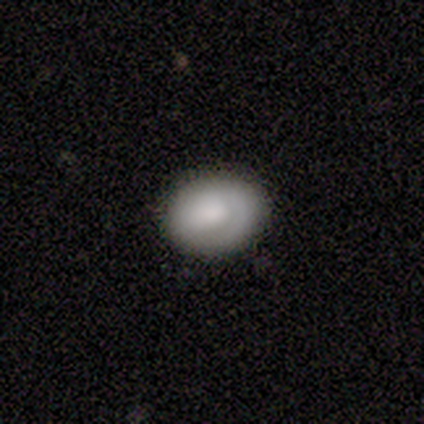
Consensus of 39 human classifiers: Overall: smooth (59%; featured or disk 28%). How rounded: in between (65%; round 35%). Merging: none (85%).